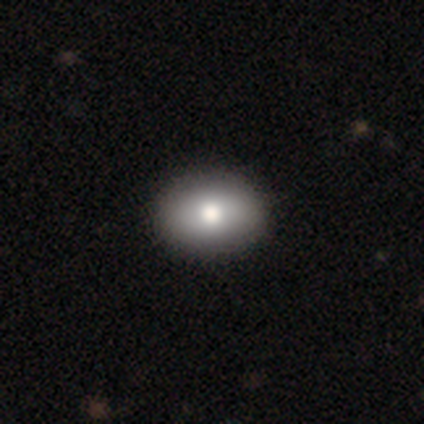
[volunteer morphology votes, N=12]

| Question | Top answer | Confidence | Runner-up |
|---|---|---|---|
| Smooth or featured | smooth | 83% | featured or disk (17%) |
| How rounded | in between | 80% | round (20%) |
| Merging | none | 92% | major disturbance (8%) |